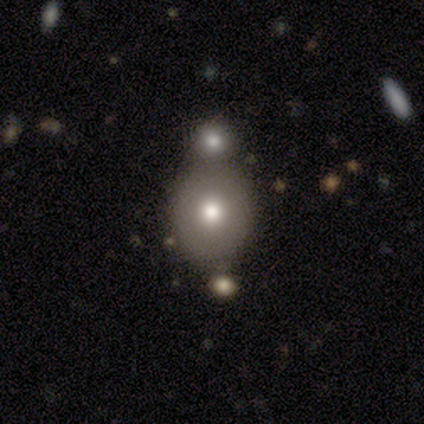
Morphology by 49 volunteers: Overall: smooth (73%). How rounded: round (75%). Merging: none (48%; merger 27%).